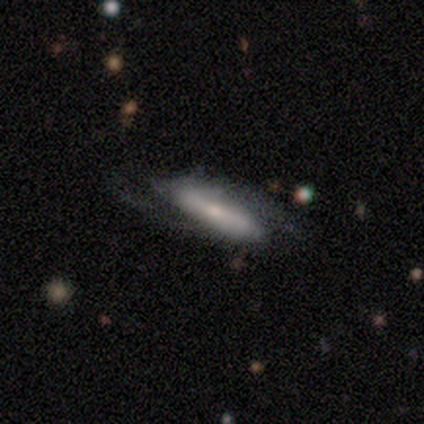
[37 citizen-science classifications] Smooth or featured?
  - featured or disk: 73% *
  - smooth: 19%
  - star or artifact: 8%
Edge-on disk?
  - no: 70% *
  - yes: 30%
Bar?
  - strong: 63% *
  - weak: 26%
  - no: 11%
Spiral arms?
  - yes: 100% *
  - no: 0%
Spiral winding?
  - loose: 53% *
  - medium: 37%
  - tight: 11%
Spiral arm count?
  - 2: 95% *
  - 1: 5%
  - 3: 0%
  - 4: 0%
  - more than 4: 0%
  - can't tell: 0%
Bulge size?
  - small: 68% *
  - moderate: 26%
  - none: 5%
  - dominant: 0%
  - large: 0%
Merging?
  - none: 71% *
  - minor disturbance: 15%
  - major disturbance: 12%
  - merger: 3%